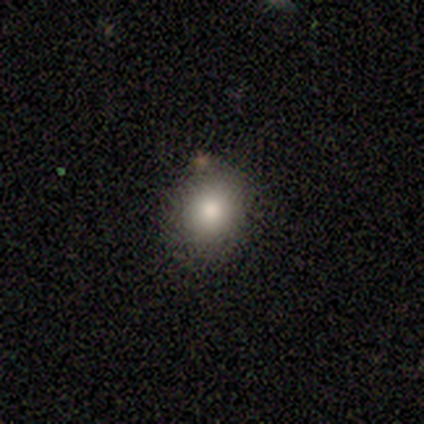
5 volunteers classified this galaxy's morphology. smooth 100%, featured or disk 0%, star or artifact 0%. Down the decision tree: how rounded — round (60%); merging — none (80%).